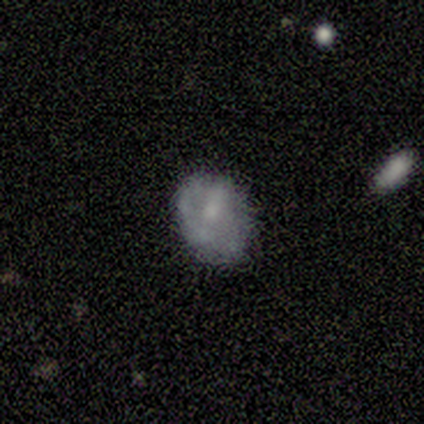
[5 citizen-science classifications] A smooth galaxy with no disk features (100%) that is in between round and cigar-shaped (80%). Merging: none (60%).